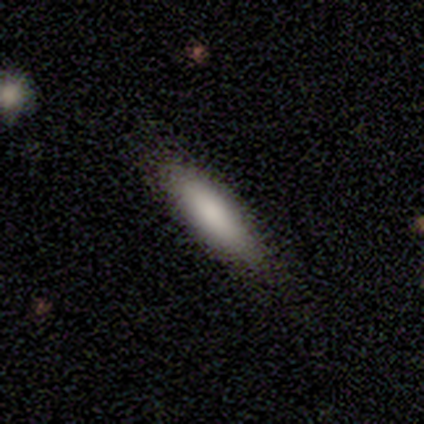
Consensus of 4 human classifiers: This is clearly a smooth galaxy (100%). How rounded: clearly in between (100%). Merging: clearly none (100%).